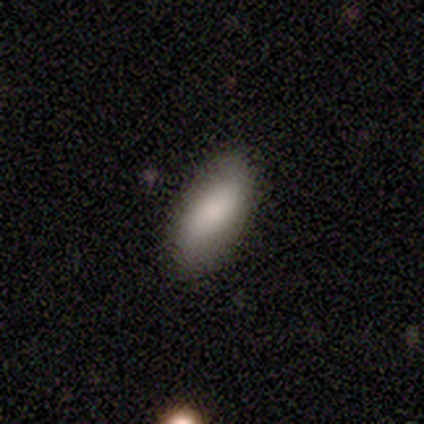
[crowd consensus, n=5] Smooth or featured?
  - featured or disk: 60% *
  - smooth: 40%
  - star or artifact: 0%
Edge-on disk?
  - no: 100% *
  - yes: 0%
Bar?
  - weak: 67% *
  - no: 33%
  - strong: 0%
Spiral arms?
  - no: 100% *
  - yes: 0%
Bulge size?
  - small: 100% *
  - dominant: 0%
  - large: 0%
  - moderate: 0%
  - none: 0%
Merging?
  - none: 100% *
  - minor disturbance: 0%
  - major disturbance: 0%
  - merger: 0%